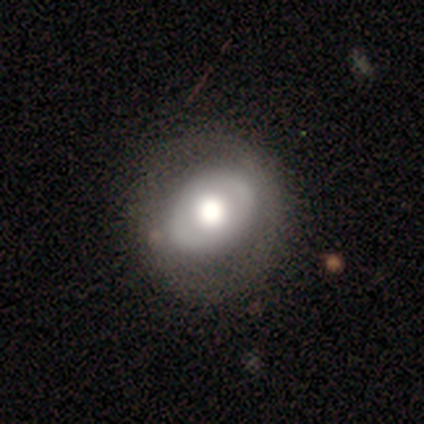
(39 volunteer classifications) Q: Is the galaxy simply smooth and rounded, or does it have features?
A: featured or disk — 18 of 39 (46%).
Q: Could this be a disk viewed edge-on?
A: no — 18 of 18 (100%).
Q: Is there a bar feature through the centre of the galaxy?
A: no — 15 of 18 (83%).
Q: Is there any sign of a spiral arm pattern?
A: no — 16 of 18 (89%).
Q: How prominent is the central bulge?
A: large — 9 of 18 (50%, tied with moderate).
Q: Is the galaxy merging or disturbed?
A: none — 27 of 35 (77%).